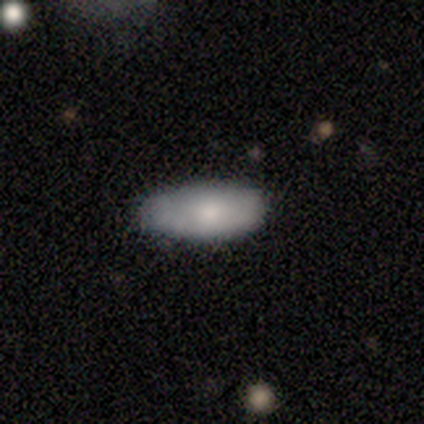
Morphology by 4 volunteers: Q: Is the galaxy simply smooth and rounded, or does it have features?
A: smooth — 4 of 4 (100%).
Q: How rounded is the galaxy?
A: in between — 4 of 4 (100%).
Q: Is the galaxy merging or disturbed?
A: none — 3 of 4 (75%).